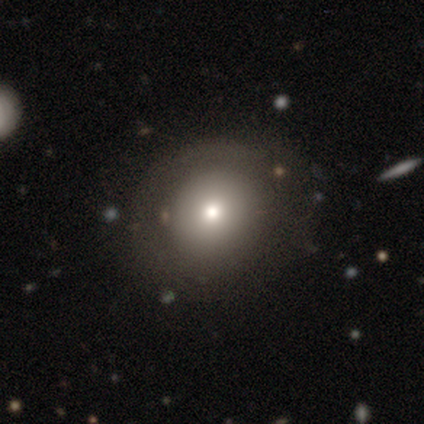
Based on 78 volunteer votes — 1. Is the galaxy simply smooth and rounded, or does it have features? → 79% smooth, 14% featured or disk, 6% star or artifact.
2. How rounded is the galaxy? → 84% round, 16% in between, 0% cigar-shaped.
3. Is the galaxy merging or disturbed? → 41% none, 10% minor disturbance, 4% merger, 1% major disturbance.